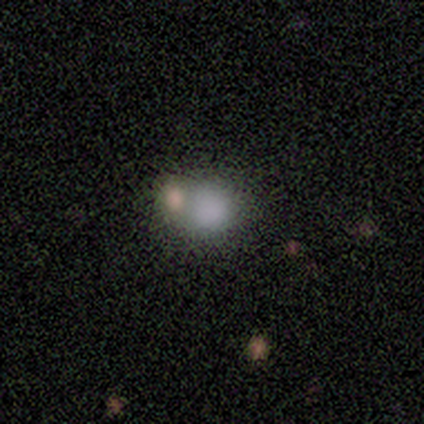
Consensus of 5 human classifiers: Smooth or featured: smooth — 100%
How rounded: round — 80% (in between — 20%)
Merging: none — 60% (minor disturbance — 20%)